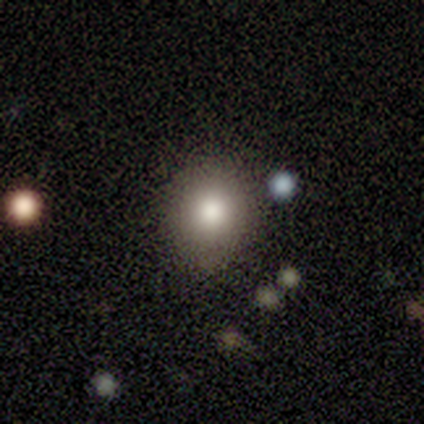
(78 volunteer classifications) This appears to be a smooth galaxy with no disk features (83%) that is round (83%). Merging: none (39%).